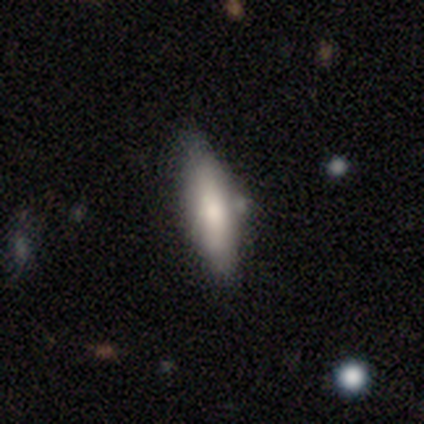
Volunteers were most divided on "merging": minor disturbance: 60%, none: 20%, merger: 20%, major disturbance: 0%. More confident: smooth or featured — smooth (80%); how rounded — cigar-shaped (75%).